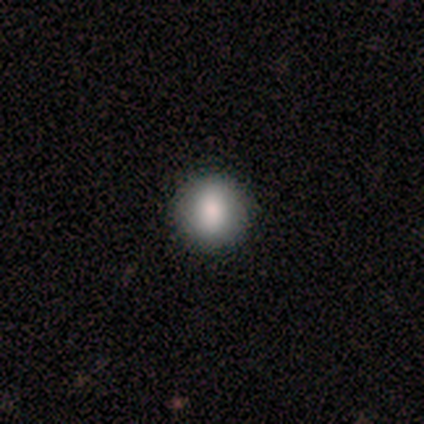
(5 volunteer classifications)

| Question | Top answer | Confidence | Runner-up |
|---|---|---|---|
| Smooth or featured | smooth | 80% | featured or disk (20%) |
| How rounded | round | 75% | in between (25%) |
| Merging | none | 100% | — |